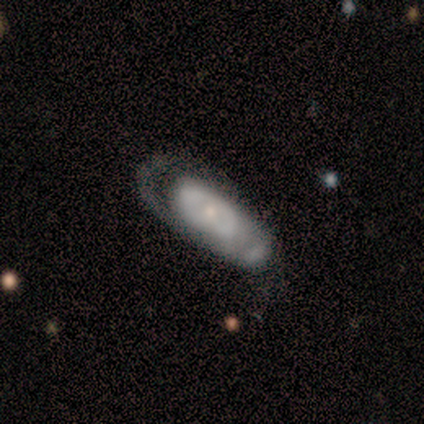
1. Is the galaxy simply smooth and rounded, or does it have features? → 80% featured or disk, 20% smooth, 0% star or artifact.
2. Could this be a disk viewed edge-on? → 75% no, 25% yes.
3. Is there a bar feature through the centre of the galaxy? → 100% no, 0% strong, 0% weak.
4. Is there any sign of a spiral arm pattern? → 67% no, 33% yes.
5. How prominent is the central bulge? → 67% moderate, 33% small, 0% dominant, 0% large, 0% none.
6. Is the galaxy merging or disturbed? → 60% major disturbance, 40% none, 0% minor disturbance, 0% merger.